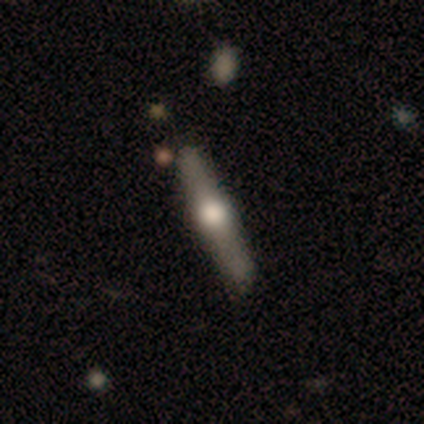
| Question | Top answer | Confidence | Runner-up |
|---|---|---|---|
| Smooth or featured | featured or disk | 69% | smooth (31%) |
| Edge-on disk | yes | 100% | — |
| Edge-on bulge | rounded | 100% | — |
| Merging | none | 92% | merger (8%) |